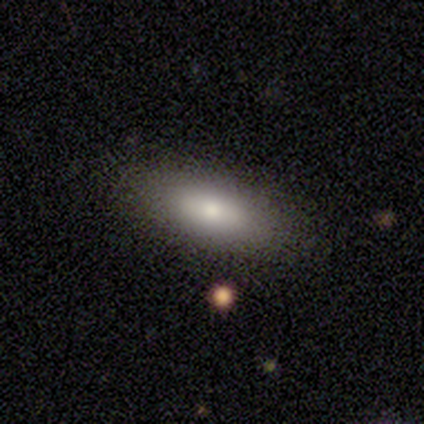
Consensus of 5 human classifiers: Smooth or featured?
  - smooth: 80% *
  - featured or disk: 20%
  - star or artifact: 0%
How rounded?
  - in between: 75% *
  - cigar-shaped: 25%
  - round: 0%
Merging?
  - none: 100% *
  - minor disturbance: 0%
  - major disturbance: 0%
  - merger: 0%